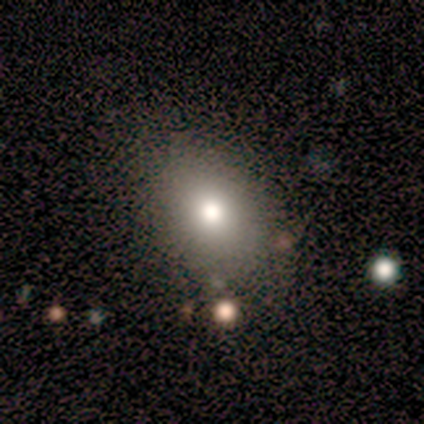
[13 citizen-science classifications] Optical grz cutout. It shows a smooth galaxy with no disk features (92%) that is in between round and cigar-shaped (67%). Merging: none (83%).